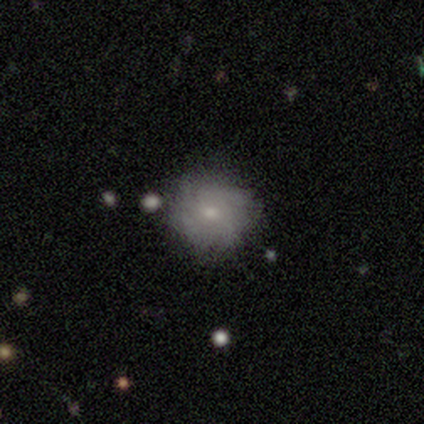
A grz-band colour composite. It shows a smooth galaxy with no disk features (67%) that is round (88%). Merging: none (100%).